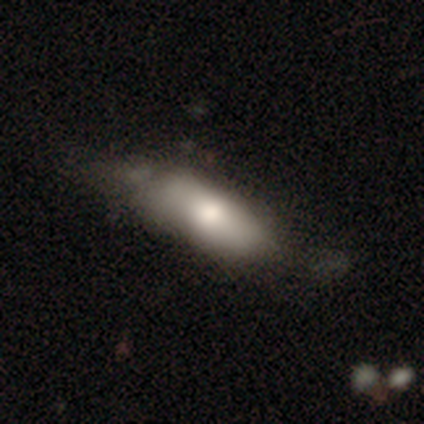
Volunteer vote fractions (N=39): This is likely a smooth galaxy (74%). How rounded: likely in between (72%). Merging: marginally minor disturbance (32%).